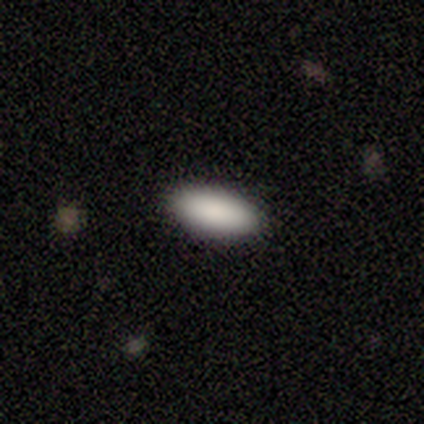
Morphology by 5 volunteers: smooth-or-featured: smooth: 100% | featured or disk: 0% | star or artifact: 0%
  how-rounded: in between: 100% | round: 0% | cigar-shaped: 0%
  merging: none: 100% | minor disturbance: 0% | major disturbance: 0% | merger: 0%